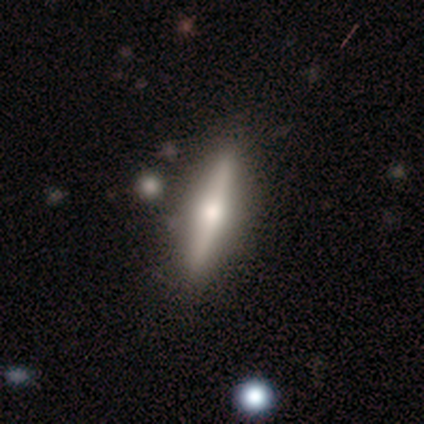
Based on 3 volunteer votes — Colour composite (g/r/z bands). It shows a featured or disk galaxy (100%) viewed edge-on (100%) with a rounded central bulge (100%). Merging: none (67%).